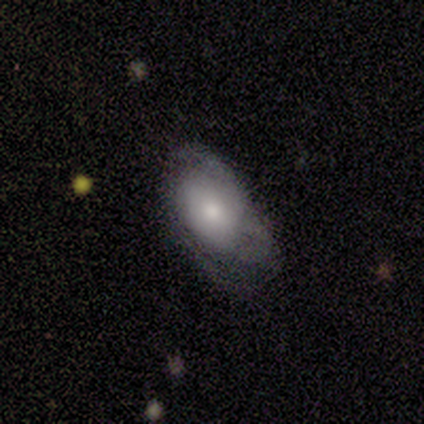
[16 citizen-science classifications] smooth_or_featured: smooth (p=0.50) [alt: featured or disk p=0.38]
how_rounded: in between (p=0.88) [alt: round p=0.12]
merging: none (p=0.43) [alt: minor disturbance p=0.29]